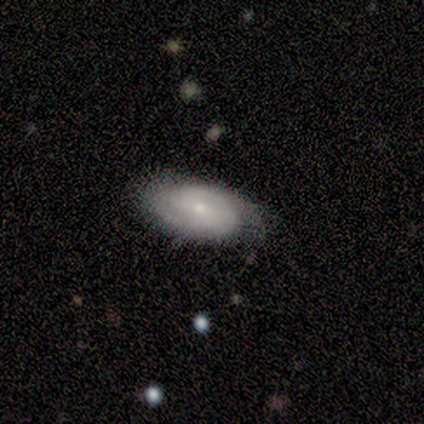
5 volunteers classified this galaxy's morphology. A smooth galaxy with no disk features (60%) that is in between round and cigar-shaped (100%).

Vote fractions:
- Smooth or featured? smooth: 60% / featured or disk: 40% / star or artifact: 0%
- How rounded? in between: 100% / round: 0% / cigar-shaped: 0%
- Merging? none: 100% / minor disturbance: 0% / major disturbance: 0% / merger: 0%